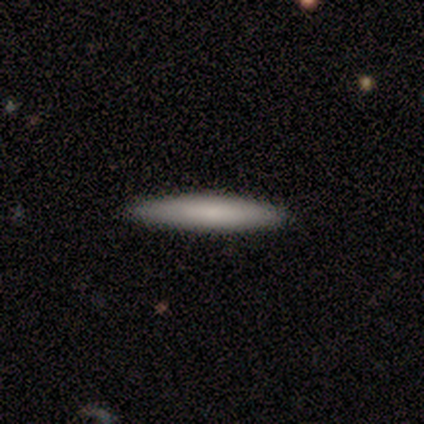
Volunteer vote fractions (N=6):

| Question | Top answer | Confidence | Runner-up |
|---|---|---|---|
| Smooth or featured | smooth | 67% | featured or disk (33%) |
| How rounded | cigar-shaped | 100% | — |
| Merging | none | 83% | minor disturbance (17%) |